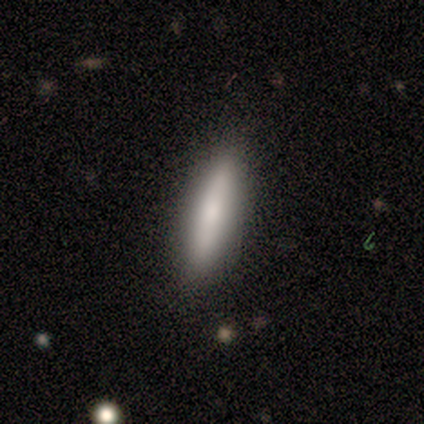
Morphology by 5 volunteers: smooth_or_featured: smooth (p=0.80) [alt: featured or disk p=0.20]
how_rounded: cigar-shaped (p=1.00)
merging: none (p=1.00)